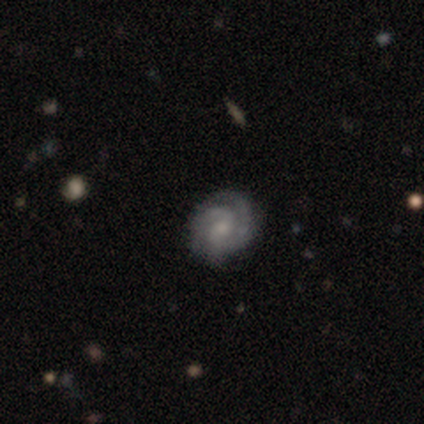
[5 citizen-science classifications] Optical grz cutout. It shows a featured or disk galaxy (100%) with no bar (80%), 2 (60%) tight (80%) spiral arms (100%) and a small central bulge (60%). Merging: none (100%).